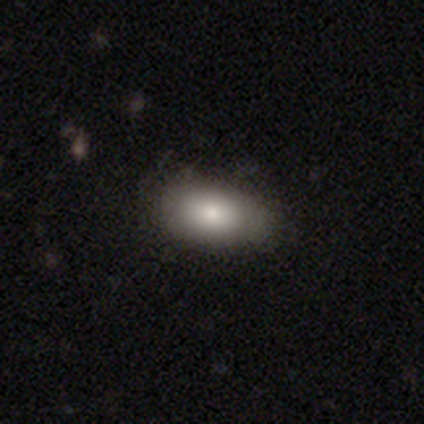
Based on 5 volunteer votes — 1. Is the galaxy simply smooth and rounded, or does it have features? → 60% smooth, 40% featured or disk, 0% star or artifact.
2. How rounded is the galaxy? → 100% in between, 0% round, 0% cigar-shaped.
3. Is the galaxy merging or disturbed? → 100% none, 0% minor disturbance, 0% major disturbance, 0% merger.